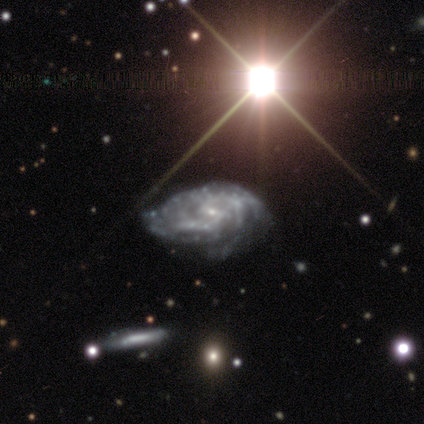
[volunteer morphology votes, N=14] A featured or disk galaxy (79%) with a weak bar (60%), 2 (33%, tied with 4) medium (56%) spiral arms (90%) and a small central bulge (100%).

Vote fractions:
- Smooth or featured? featured or disk: 79% / smooth: 14% / star or artifact: 7%
- Edge-on disk? no: 91% / yes: 9%
- Bar? weak: 60% / strong: 20% / no: 20%
- Spiral arms? yes: 90% / no: 10%
- Spiral winding? medium: 56% / tight: 44% / loose: 0%
- Spiral arm count? 2: 33% (tied) / 4: 33% (tied) / 3: 11% / more than 4: 11% / can't tell: 11% / 1: 0%
- Bulge size? small: 100% / dominant: 0% / large: 0% / moderate: 0% / none: 0%
- Merging? none: 69% / minor disturbance: 23% / major disturbance: 8% / merger: 0%